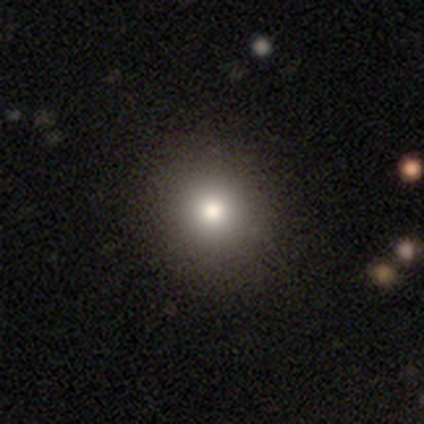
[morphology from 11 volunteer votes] Smooth or featured? smooth (73%)
How rounded? round (75%)
Merging? none (100%)